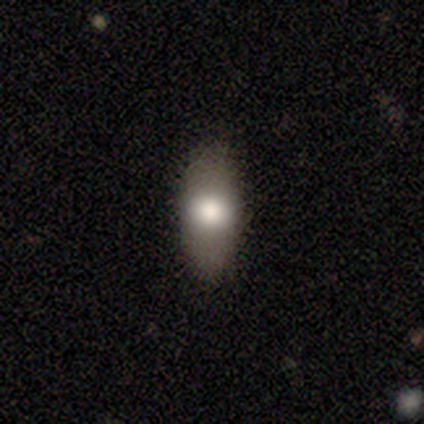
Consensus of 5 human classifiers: Q: Smooth or featured?
A: featured or disk (60%); runner-up: smooth (40%)
Q: Edge-on disk?
A: no (100%)
Q: Bar?
A: no (100%)
Q: Spiral arms?
A: no (100%)
Q: Bulge size?
A: moderate (67%); runner-up: large (33%)
Q: Merging?
A: none (100%)